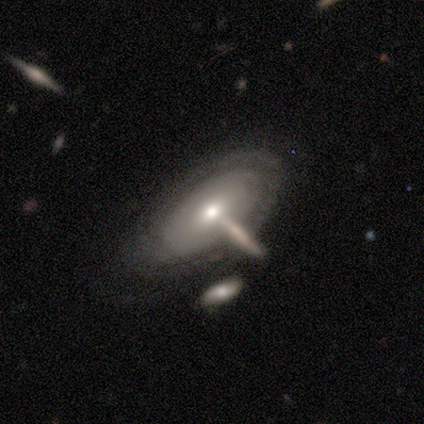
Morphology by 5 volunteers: This appears to be a featured or disk galaxy (80%) with no bar (100%), no spiral arms (75%) and a small central bulge (75%). Merging: none (40%, tied with minor disturbance).